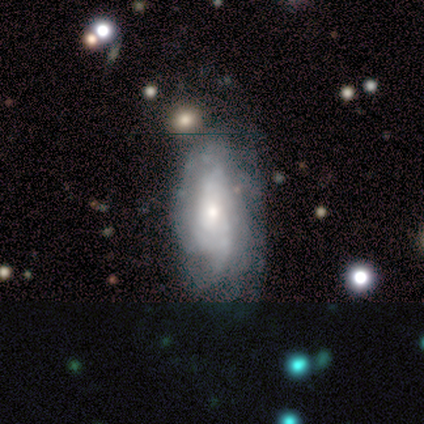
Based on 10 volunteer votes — Smooth or featured? 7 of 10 (70%) said featured or disk. Edge-on disk? 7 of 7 (100%) said no. Bar? 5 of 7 (71%) said no. Spiral arms? 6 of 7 (86%) said yes. Spiral winding? 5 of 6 (83%) said tight. Spiral arm count? 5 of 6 (83%) said can't tell. Bulge size? 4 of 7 (57%) said small. Merging? 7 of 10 (70%) said none.